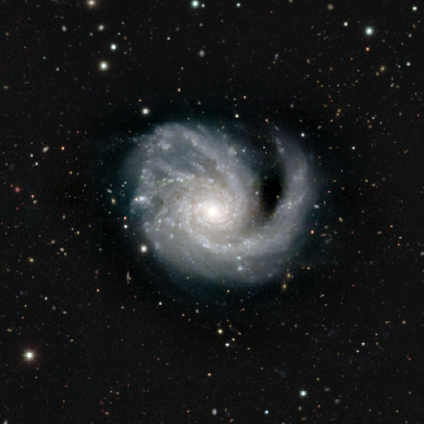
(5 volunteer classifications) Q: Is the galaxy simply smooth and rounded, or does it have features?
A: featured or disk — 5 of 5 (100%).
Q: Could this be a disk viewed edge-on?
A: no — 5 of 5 (100%).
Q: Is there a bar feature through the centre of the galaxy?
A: no — 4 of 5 (80%).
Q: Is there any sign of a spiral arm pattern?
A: yes — 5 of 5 (100%).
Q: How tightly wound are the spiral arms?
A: medium — 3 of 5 (60%).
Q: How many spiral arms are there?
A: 3 — 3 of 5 (60%).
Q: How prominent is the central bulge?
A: moderate — 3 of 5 (60%).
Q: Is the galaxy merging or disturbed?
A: none — 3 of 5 (60%).